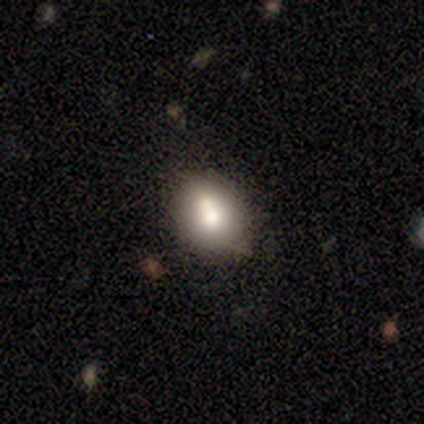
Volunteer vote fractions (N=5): Volunteers were most divided on "smooth or featured": smooth: 60%, featured or disk: 40%, star or artifact: 0%. More confident: how rounded — round (67%); merging — none (60%).